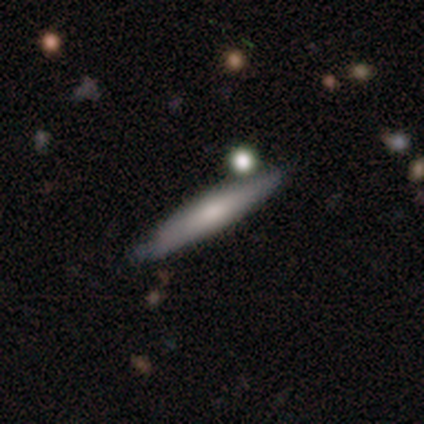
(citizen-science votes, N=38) Q: Smooth or featured?
A: smooth (50%); runner-up: featured or disk (47%)
Q: How rounded?
A: cigar-shaped (84%); runner-up: in between (16%)
Q: Merging?
A: none (73%); runner-up: minor disturbance (11%)